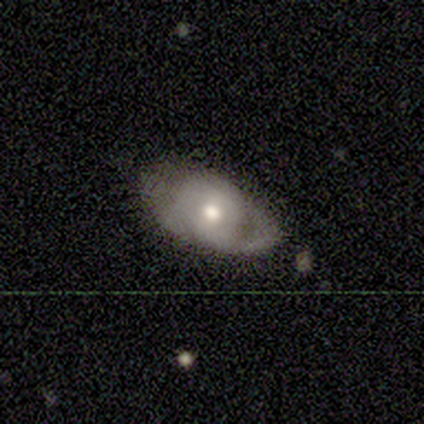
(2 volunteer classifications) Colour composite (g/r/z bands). It shows a featured or disk galaxy (50%, tied with star or artifact) with no bar (100%), tight (100%) spiral arms (100%) and a moderate central bulge (100%). Merging: none (100%).